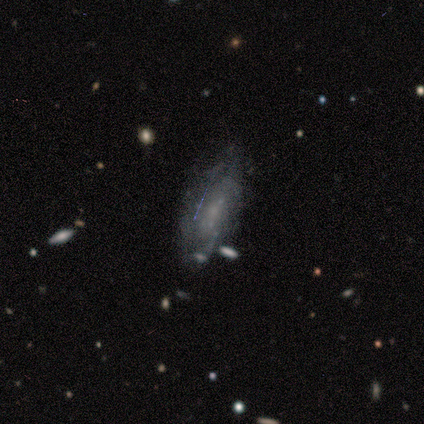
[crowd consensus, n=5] A featured or disk galaxy (80%) with no bar (100%), 2 (100%) medium (50%, tied with loose) spiral arms (50%, tied with no) and a small central bulge (50%).

Vote fractions:
- Smooth or featured? featured or disk: 80% / star or artifact: 20% / smooth: 0%
- Edge-on disk? no: 100% / yes: 0%
- Bar? no: 100% / strong: 0% / weak: 0%
- Spiral arms? yes: 50% (tied) / no: 50% (tied)
- Spiral winding? medium: 50% (tied) / loose: 50% (tied) / tight: 0%
- Spiral arm count? 2: 100% / 1: 0% / 3: 0% / 4: 0% / more than 4: 0% / can't tell: 0%
- Bulge size? small: 50% / moderate: 25% / none: 25% / dominant: 0% / large: 0%
- Merging? none: 50% / minor disturbance: 25% / merger: 25% / major disturbance: 0%